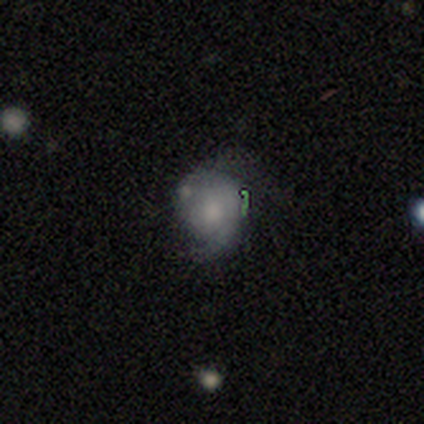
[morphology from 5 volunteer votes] type=smooth (80%); roundness=round (75%); merging=minor disturbance (40%, tied with major disturbance).